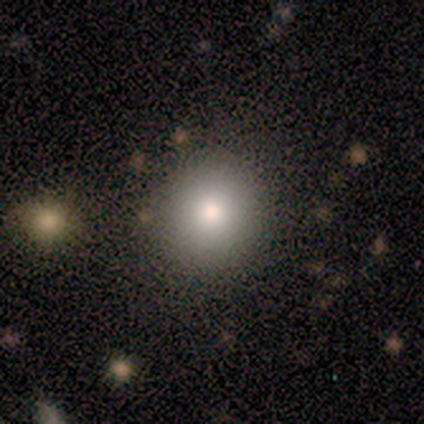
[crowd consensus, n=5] smooth-or-featured: smooth: 80% | star or artifact: 20% | featured or disk: 0%
  how-rounded: round: 100% | in between: 0% | cigar-shaped: 0%
  merging: none: 75% | major disturbance: 25% | minor disturbance: 0% | merger: 0%